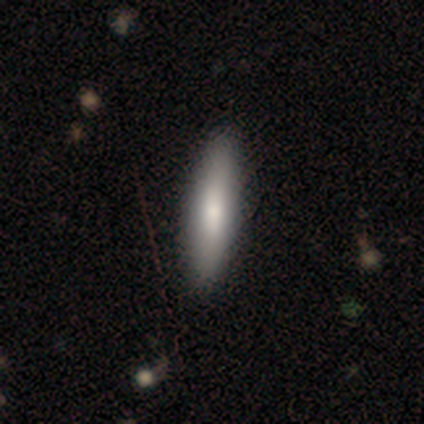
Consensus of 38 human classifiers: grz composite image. It shows a smooth galaxy with no disk features (84%) that is cigar-shaped (78%). Merging: none (74%).